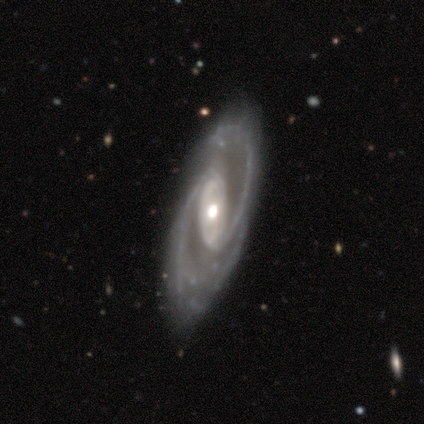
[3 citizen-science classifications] Overall: featured or disk (100%). Edge-on disk: no (67%; yes 33%). Bar: strong (100%). Spiral arms: yes (100%). Spiral arm count: 2 (100%). Spiral winding: medium (50%, tied with loose). Bulge size: moderate (100%). Merging: none (67%; merger 33%).